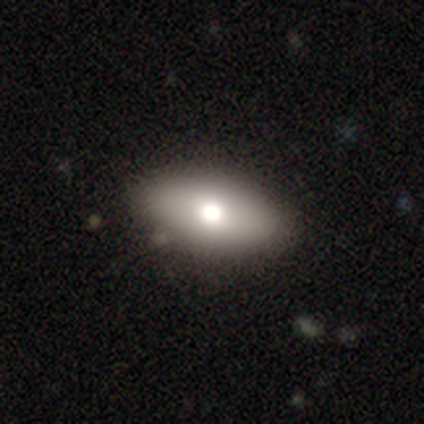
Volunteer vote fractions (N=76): smooth 72%, featured or disk 24%, star or artifact 4%. Down the decision tree: how rounded — in between (93%); merging — none (55%).